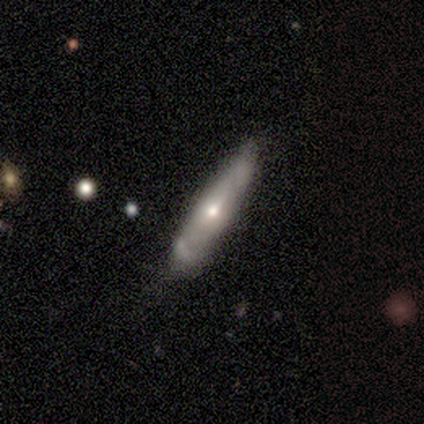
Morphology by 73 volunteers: featured or disk 51%, smooth 49%, star or artifact 0%. Down the decision tree: edge-on disk — no (57%); bar — no (48%); spiral arms — no (62%); bulge size — moderate (52%); merging — none (62%).